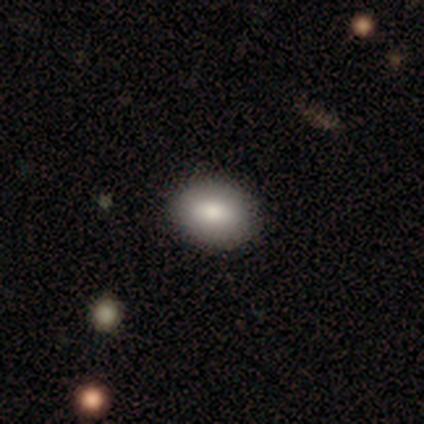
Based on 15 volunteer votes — Morphology: type=smooth (87%); roundness=in between (85%); merging=none (100%).